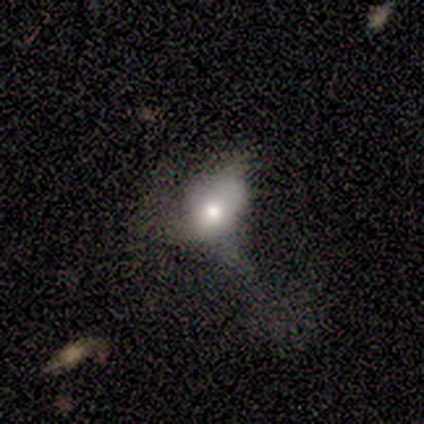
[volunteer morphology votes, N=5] A smooth galaxy with no disk features (80%) that is in between round and cigar-shaped (100%). Merging: none (40%, tied with minor disturbance).